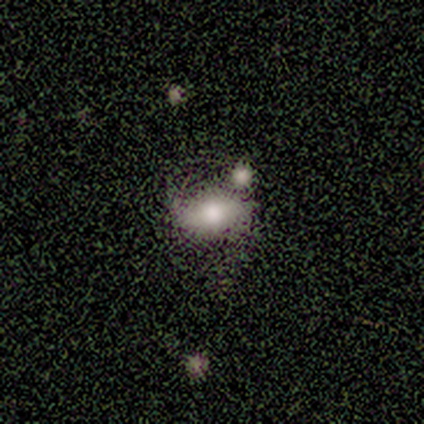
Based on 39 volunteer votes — A smooth galaxy with no disk features (62%) that is in between round and cigar-shaped (88%). Merging: none (61%).